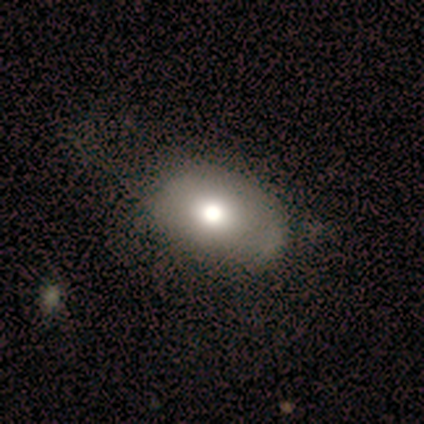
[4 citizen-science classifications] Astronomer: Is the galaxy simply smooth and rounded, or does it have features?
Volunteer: smooth — 50%.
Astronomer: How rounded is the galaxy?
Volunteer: round — 50%, tied with in between at 50%.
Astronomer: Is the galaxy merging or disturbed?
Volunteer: minor disturbance — 67%.